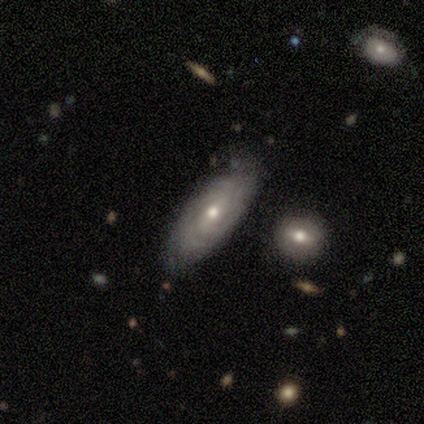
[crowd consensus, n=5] Morphology: type=smooth (60%); roundness=in between (67%); merging=none (50%, tied with merger).